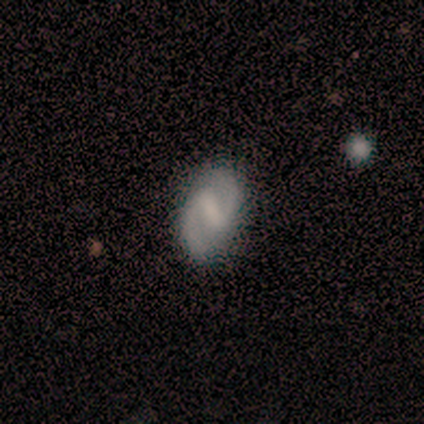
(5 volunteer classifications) smooth-or-featured: featured or disk: 100% | smooth: 0% | star or artifact: 0%
  disk-edge-on: no: 100% | yes: 0%
    bar: weak: 80% | strong: 20% | no: 0%
    has-spiral-arms: yes: 100% | no: 0%
      spiral-winding: medium: 80% | loose: 20% | tight: 0%
      spiral-arm-count: 2: 100% | 1: 0% | 3: 0% | 4: 0% | more than 4: 0% | can't tell: 0%
    bulge-size: none: 60% | large: 20% | small: 20% | dominant: 0% | moderate: 0%
  merging: none: 100% | minor disturbance: 0% | major disturbance: 0% | merger: 0%